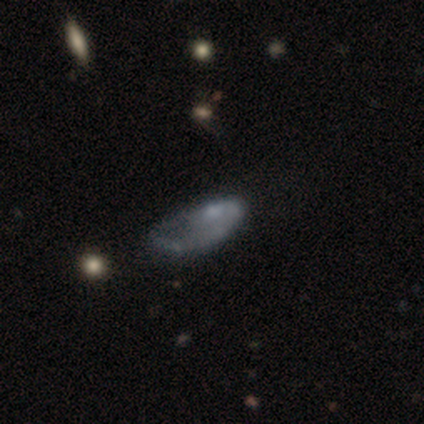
This is possibly a featured or disk galaxy (49%). It is clearly not viewed edge-on (95%). Bar: clearly no (94%). Spiral arm pattern: likely no (67%). Central bulge: possibly none (56%). Merging: possibly major disturbance (53%).